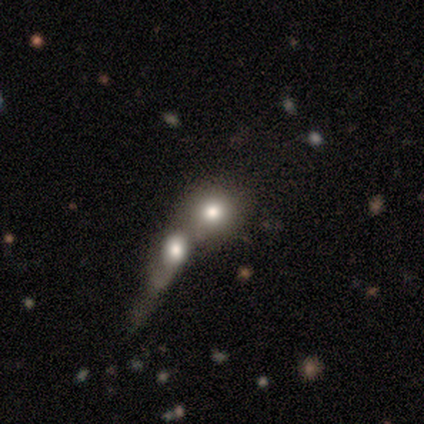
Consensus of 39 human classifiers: Smooth or featured? 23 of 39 (59%) said smooth. How rounded? 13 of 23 (57%) said round. Merging? 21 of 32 (66%) said merger.